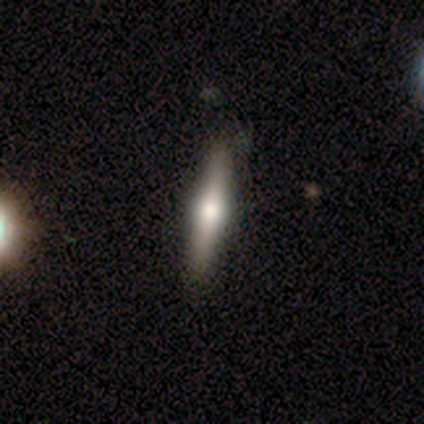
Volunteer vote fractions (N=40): This appears to be a featured or disk galaxy (70%) viewed edge-on (96%) with a rounded central bulge (100%). Merging: none (80%).